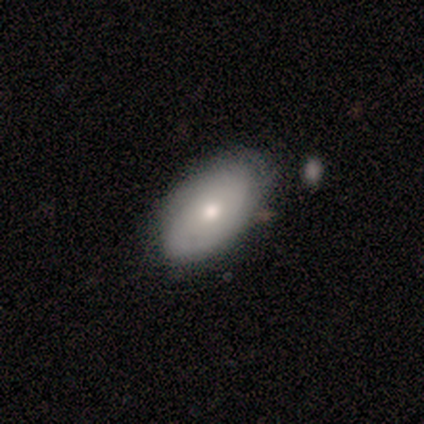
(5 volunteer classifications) A smooth galaxy with no disk features (80%) that is in between round and cigar-shaped (100%).

Vote fractions:
- Smooth or featured? smooth: 80% / featured or disk: 20% / star or artifact: 0%
- How rounded? in between: 100% / round: 0% / cigar-shaped: 0%
- Merging? none: 100% / minor disturbance: 0% / major disturbance: 0% / merger: 0%